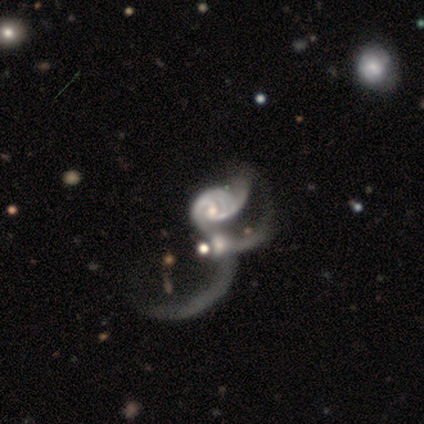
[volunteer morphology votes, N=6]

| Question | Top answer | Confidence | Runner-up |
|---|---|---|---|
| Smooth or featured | featured or disk | 100% | — |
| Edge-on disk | no | 100% | — |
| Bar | no | 100% | — |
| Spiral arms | yes | 100% | — |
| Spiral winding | tight | 50% | loose (33%) |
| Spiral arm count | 2 | 50% | 1 (17%) |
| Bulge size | small | 83% | moderate (17%) |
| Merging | major disturbance | 50% | tied: merger (50%) |